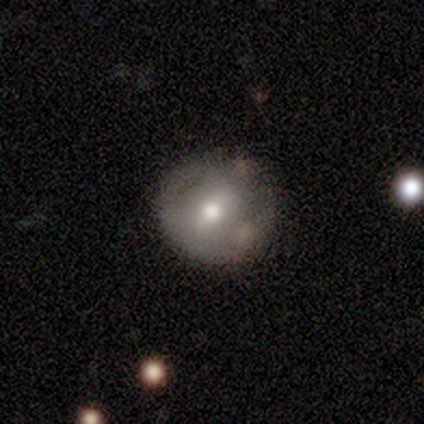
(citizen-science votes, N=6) smooth 50% (tied), featured or disk 50% (tied), star or artifact 0%. Down the decision tree: how rounded — round (100%); merging — none (100%).